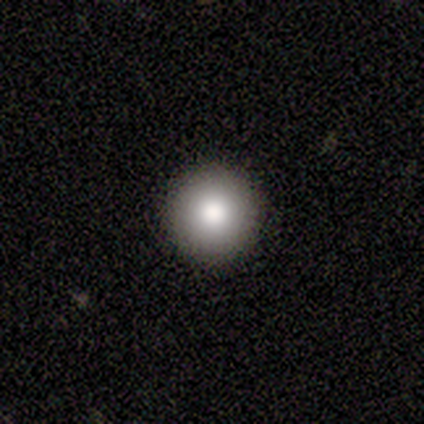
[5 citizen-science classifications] Overall: smooth (60%; featured or disk 20%). How rounded: round (100%). Merging: none (75%).